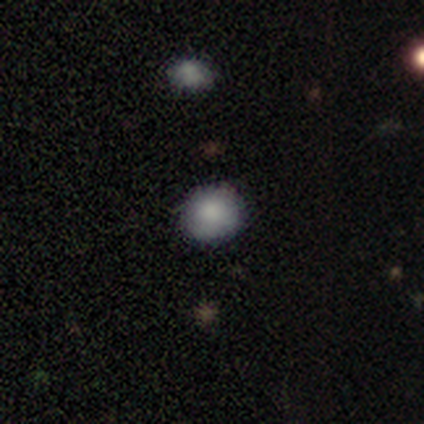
Morphology: type=smooth (85%); roundness=round (91%); merging=none (75%).